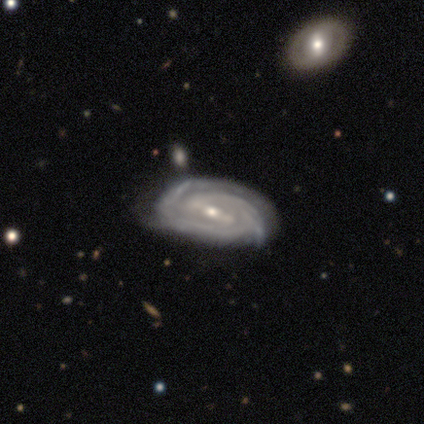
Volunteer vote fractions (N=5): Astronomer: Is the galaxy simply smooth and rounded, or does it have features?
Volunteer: featured or disk — 100%.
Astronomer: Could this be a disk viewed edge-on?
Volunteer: no — 100%.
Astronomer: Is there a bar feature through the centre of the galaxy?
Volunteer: weak — 60% (runner-up: strong, 40%).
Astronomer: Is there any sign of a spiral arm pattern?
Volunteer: yes — 100%.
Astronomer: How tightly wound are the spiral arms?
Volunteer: tight — 60% (runner-up: medium, 40%).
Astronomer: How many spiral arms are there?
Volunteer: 3 — 40% (runner-up: 1, 20%).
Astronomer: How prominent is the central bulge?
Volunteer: small — 80%.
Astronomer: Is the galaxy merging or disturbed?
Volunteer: none — 60%.